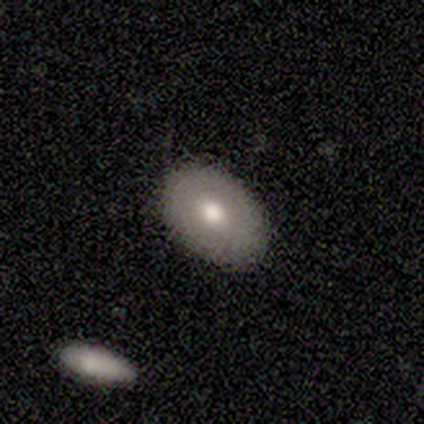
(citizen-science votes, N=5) smooth_or_featured: smooth (p=0.60) [alt: featured or disk p=0.20]
how_rounded: in between (p=1.00)
merging: none (p=1.00)